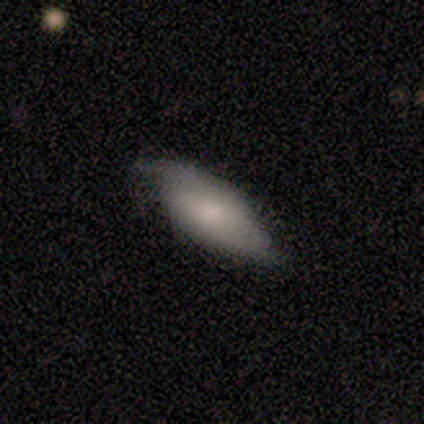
Smooth or featured? 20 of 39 (51%) said smooth. How rounded? 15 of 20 (75%) said in between. Merging? 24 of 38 (63%) said none.